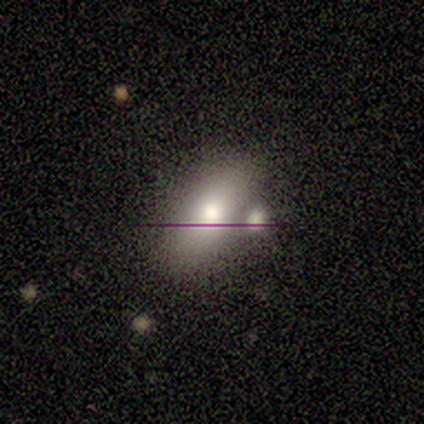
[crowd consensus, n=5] smooth 80%, featured or disk 20%, star or artifact 0%. Down the decision tree: how rounded — in between (100%); merging — none (60%).